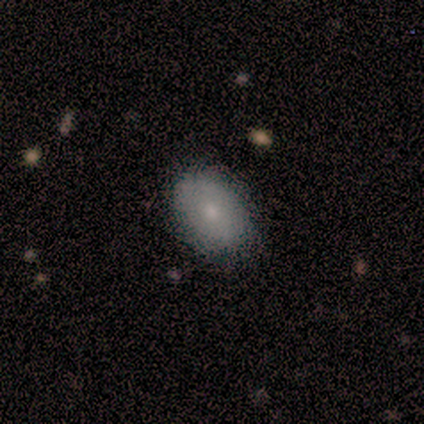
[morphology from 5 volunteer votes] Smooth or featured? smooth (40%, tied with featured or disk)
How rounded? round (50%, tied with in between)
Merging? none (100%)